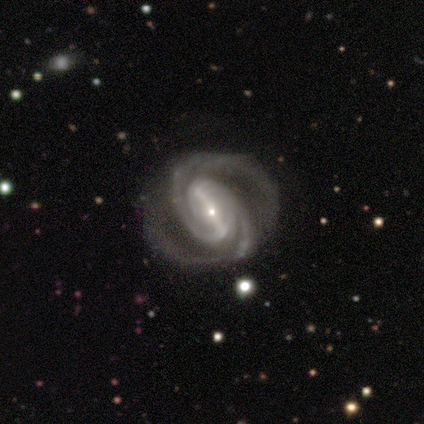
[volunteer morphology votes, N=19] Smooth or featured? featured or disk (95%)
Edge-on disk? no (94%)
Bar? strong (71%)
Spiral arms? yes (100%)
Spiral winding? tight (53%)
Spiral arm count? 2 (94%)
Bulge size? small (100%)
Merging? none (78%)